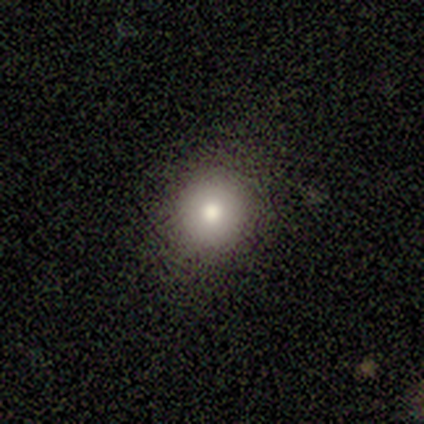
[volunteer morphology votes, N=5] This is clearly a smooth galaxy (100%). How rounded: clearly round (80%). Merging: clearly none (80%).